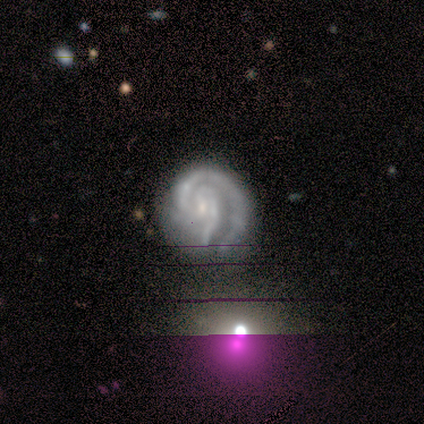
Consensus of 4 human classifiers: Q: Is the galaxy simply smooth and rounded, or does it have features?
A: featured or disk — 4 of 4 (100%).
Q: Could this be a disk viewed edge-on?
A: no — 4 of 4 (100%).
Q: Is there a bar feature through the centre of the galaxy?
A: weak — 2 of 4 (50%, tied with no).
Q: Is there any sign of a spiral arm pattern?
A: yes — 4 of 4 (100%).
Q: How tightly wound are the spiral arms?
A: tight — 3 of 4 (75%).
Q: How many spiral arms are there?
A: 2 — 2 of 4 (50%).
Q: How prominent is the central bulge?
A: small — 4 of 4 (100%).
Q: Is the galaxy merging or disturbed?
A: none — 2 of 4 (50%).